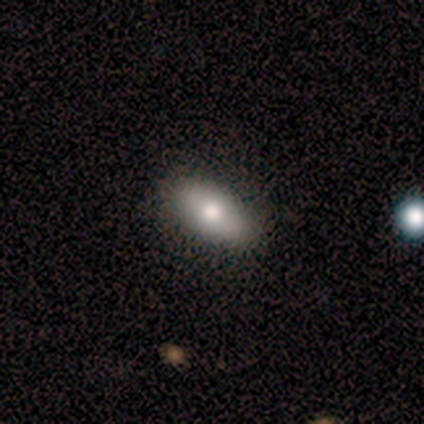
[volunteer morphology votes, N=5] A smooth galaxy with no disk features (60%) that is in between round and cigar-shaped (100%). Merging: none (100%).